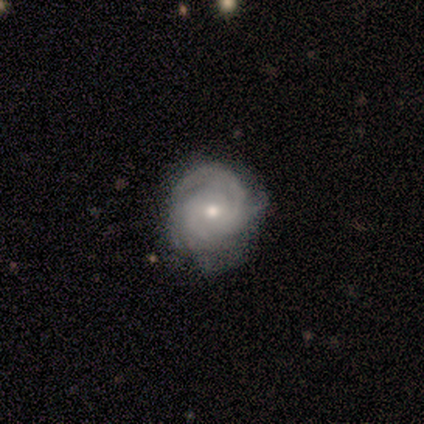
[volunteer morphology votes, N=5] Smooth or featured: featured or disk — 60% (star or artifact — 40%)
Edge-on disk: no — 100%
Bar: no — 100%
Spiral arms: yes — 100%
Spiral winding: tight — 67% (medium — 33%)
Spiral arm count: 3 — 67% (2 — 33%)
Bulge size: small — 67% (moderate — 33%)
Merging: none — 67% (minor disturbance — 33%)